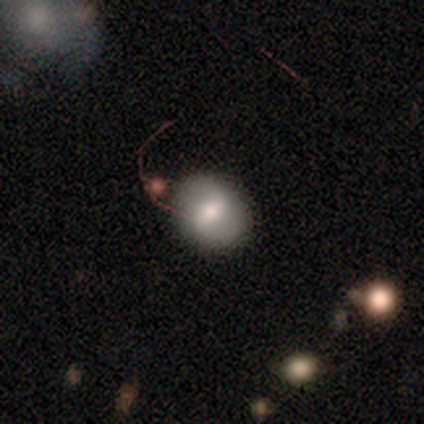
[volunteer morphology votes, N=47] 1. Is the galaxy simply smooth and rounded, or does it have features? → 66% smooth, 19% featured or disk, 15% star or artifact.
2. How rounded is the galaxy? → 52% round, 48% in between, 0% cigar-shaped.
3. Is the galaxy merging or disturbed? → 52% none, 25% minor disturbance, 15% merger, 8% major disturbance.